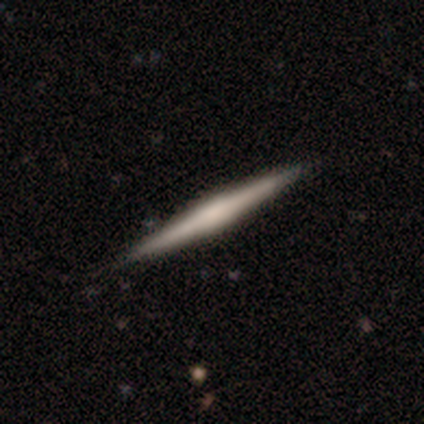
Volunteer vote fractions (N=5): This is likely a smooth galaxy (60%). How rounded: clearly cigar-shaped (100%). Merging: clearly none (100%).